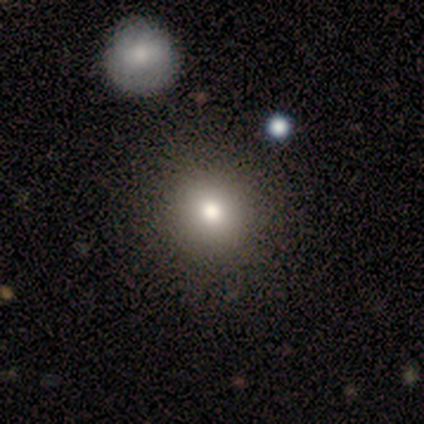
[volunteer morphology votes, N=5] Smooth or featured?
  - smooth: 60% *
  - featured or disk: 40%
  - star or artifact: 0%
How rounded?
  - round: 100% *
  - in between: 0%
  - cigar-shaped: 0%
Merging?
  - none: 100% *
  - minor disturbance: 0%
  - major disturbance: 0%
  - merger: 0%